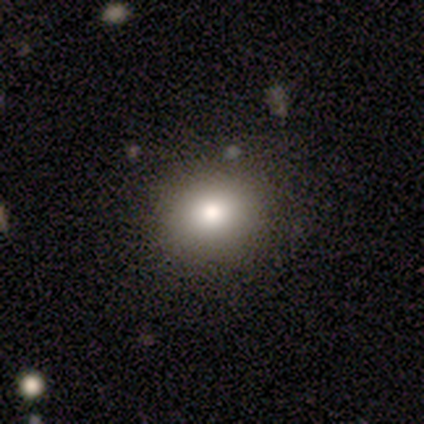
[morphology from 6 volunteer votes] This is likely a smooth galaxy (67%). How rounded: clearly round (100%). Merging: clearly none (80%).